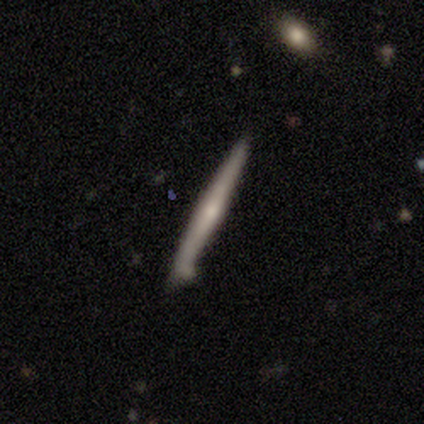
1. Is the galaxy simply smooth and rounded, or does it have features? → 80% featured or disk, 20% smooth, 0% star or artifact.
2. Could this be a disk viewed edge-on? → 100% yes, 0% no.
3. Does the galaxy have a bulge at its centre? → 75% none, 25% rounded, 0% boxy.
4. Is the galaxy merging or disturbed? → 80% none, 20% minor disturbance, 0% major disturbance, 0% merger.